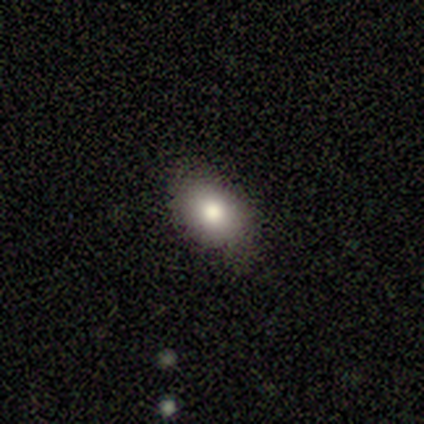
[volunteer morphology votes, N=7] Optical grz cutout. It shows a smooth galaxy with no disk features (100%) that is in between round and cigar-shaped (71%). Merging: none (86%).